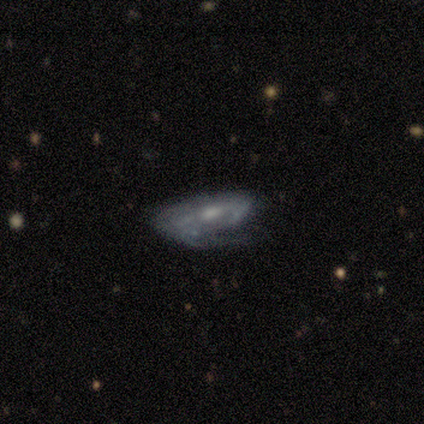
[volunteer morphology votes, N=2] Smooth or featured: featured or disk — 100%
Edge-on disk: yes — 100%
Edge-on bulge: rounded — 100%
Merging: minor disturbance — 50% (tied with major disturbance — 50%)